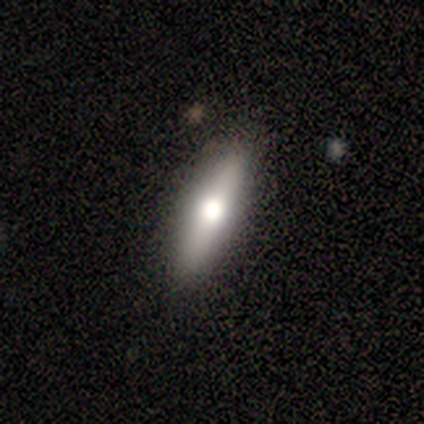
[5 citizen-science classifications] featured or disk 60%, smooth 20%, star or artifact 20%. Down the decision tree: edge-on disk — yes (100%); edge-on bulge — rounded (100%); merging — none (75%).